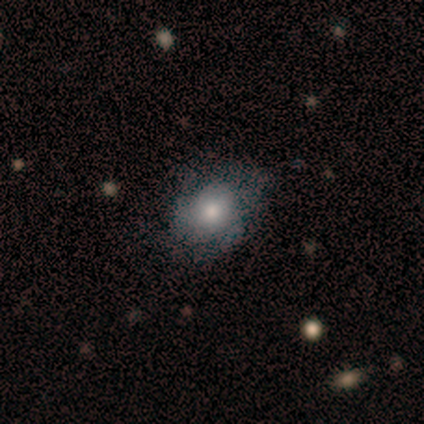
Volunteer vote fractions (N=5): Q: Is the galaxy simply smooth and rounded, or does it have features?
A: smooth — 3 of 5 (60%).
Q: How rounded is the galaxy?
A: in between — 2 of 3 (67%).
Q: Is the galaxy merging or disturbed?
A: minor disturbance — 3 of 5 (60%).